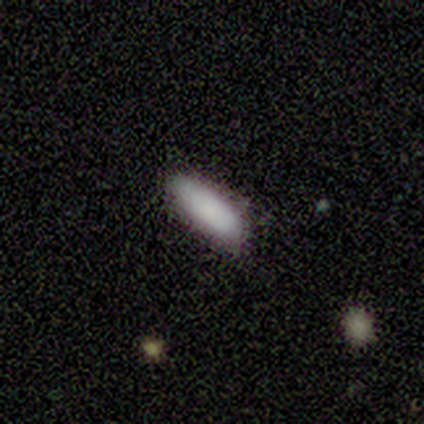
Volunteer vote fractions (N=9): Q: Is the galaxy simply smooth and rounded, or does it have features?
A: smooth — 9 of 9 (100%).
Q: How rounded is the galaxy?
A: cigar-shaped — 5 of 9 (56%).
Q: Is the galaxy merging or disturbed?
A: none — 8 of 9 (89%).